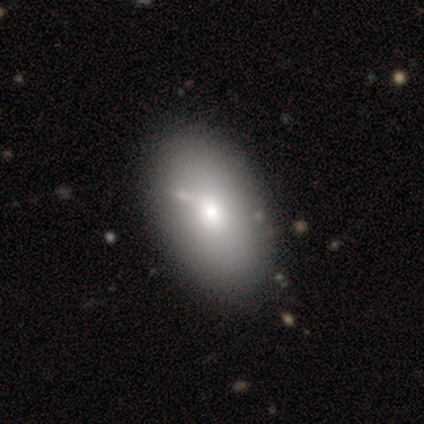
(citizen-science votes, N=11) A smooth galaxy with no disk features (100%) that is in between round and cigar-shaped (100%). Merging: none (100%).